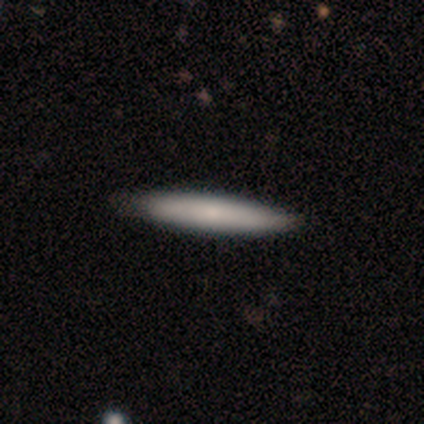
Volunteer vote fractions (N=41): Overall: smooth (71%). How rounded: cigar-shaped (97%). Merging: none (65%).